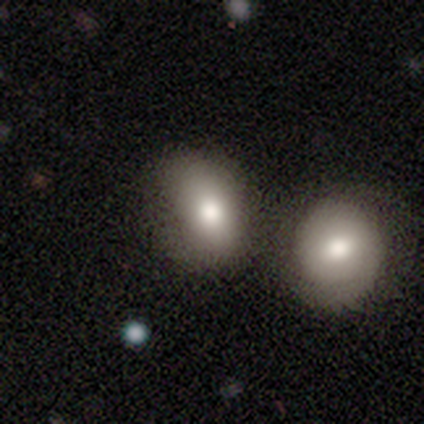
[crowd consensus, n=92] Smooth or featured: smooth — 77% (featured or disk — 13%)
How rounded: in between — 66% (round — 31%)
Merging: none — 45% (merger — 34%)